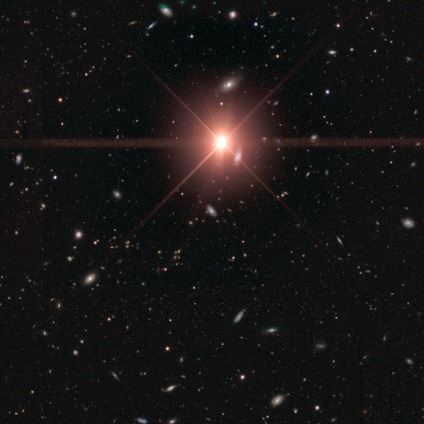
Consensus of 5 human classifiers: smooth_or_featured: featured or disk (p=0.40) [tied with: star or artifact p=0.40]
disk_edge_on: no (p=1.00)
bar: no (p=1.00)
has_spiral_arms: no (p=1.00)
bulge_size: moderate (p=1.00)
merging: none (p=1.00)